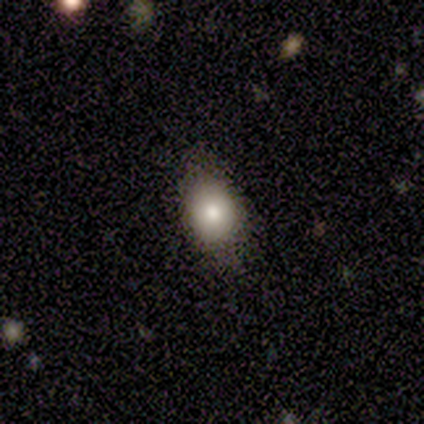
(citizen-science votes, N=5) Smooth or featured? smooth (80%)
How rounded? round (50%, tied with in between)
Merging? none (100%)